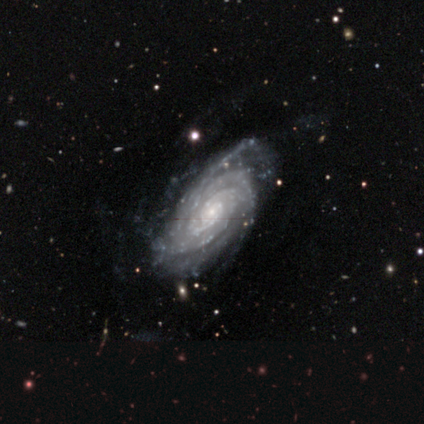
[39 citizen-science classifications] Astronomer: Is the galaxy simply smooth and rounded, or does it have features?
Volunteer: featured or disk — 92%.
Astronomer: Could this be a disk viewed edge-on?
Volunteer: no — 100%.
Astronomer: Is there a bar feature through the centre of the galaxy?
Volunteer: no — 67%.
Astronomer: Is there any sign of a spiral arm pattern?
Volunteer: yes — 100%.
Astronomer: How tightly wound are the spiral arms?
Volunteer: tight — 94%.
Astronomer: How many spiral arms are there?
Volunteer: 2 — 25%, tied with can't tell at 25%.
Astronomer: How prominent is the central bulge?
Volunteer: small — 72%.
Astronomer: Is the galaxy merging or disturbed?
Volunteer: none — 56%.